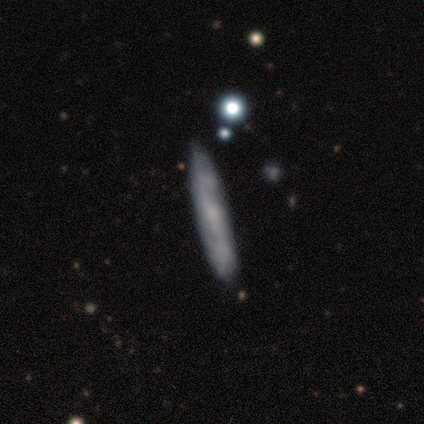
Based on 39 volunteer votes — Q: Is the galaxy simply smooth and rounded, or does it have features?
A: featured or disk — 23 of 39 (59%).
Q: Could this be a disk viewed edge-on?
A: yes — 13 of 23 (57%).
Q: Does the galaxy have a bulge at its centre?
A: none — 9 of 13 (69%).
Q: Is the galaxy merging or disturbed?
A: none — 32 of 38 (84%).